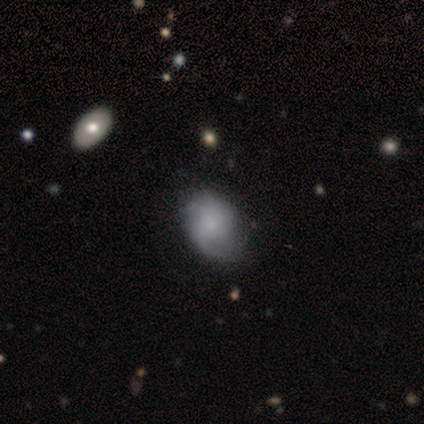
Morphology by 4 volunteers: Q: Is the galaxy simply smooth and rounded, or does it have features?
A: smooth — 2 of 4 (50%, tied with featured or disk).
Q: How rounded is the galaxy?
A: round — 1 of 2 (50%, tied with in between).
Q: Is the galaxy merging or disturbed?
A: none — 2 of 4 (50%).